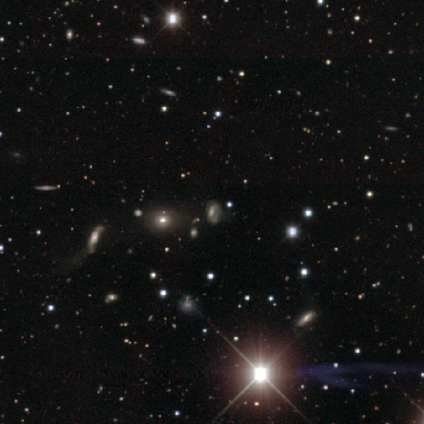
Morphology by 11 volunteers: A star or artifact, not a galaxy (64%).

Vote fractions:
- Smooth or featured? star or artifact: 64% / smooth: 18% / featured or disk: 18%